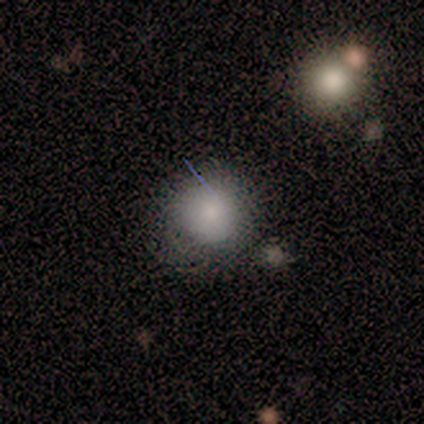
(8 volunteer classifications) Q: Smooth or featured?
A: smooth (88%); runner-up: featured or disk (12%)
Q: How rounded?
A: round (57%); runner-up: in between (29%)
Q: Merging?
A: none (62%); runner-up: minor disturbance (25%)